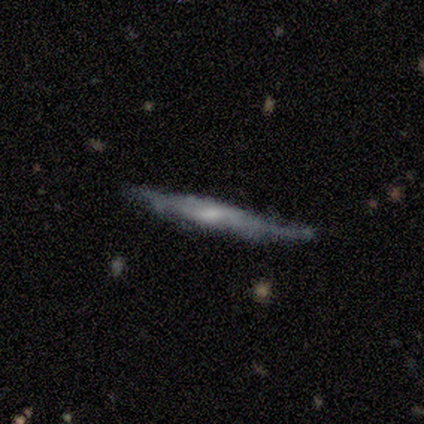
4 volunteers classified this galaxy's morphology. smooth-or-featured: featured or disk: 50% | smooth: 25% | star or artifact: 25%
  disk-edge-on: yes: 100% | no: 0%
    edge-on-bulge: rounded: 100% | boxy: 0% | none: 0%
  merging: none: 67% | minor disturbance: 33% | major disturbance: 0% | merger: 0%